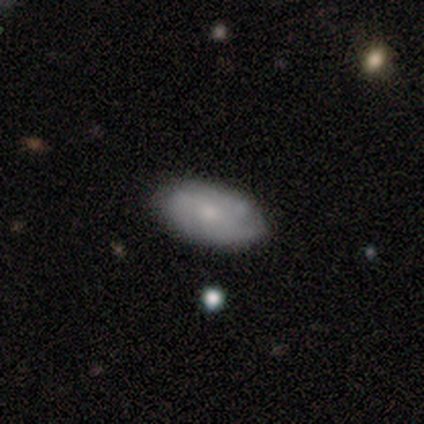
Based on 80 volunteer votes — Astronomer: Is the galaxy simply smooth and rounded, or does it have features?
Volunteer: smooth — 54% (runner-up: featured or disk, 44%).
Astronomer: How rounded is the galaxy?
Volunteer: in between — 98%.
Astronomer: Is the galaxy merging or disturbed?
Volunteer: none — 41%.